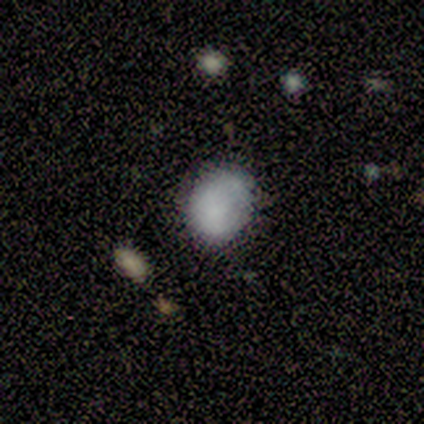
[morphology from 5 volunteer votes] smooth_or_featured: smooth (p=0.80) [alt: star or artifact p=0.20]
how_rounded: round (p=0.50) [tied with: in between p=0.50]
merging: none (p=0.50) [tied with: minor disturbance p=0.50]